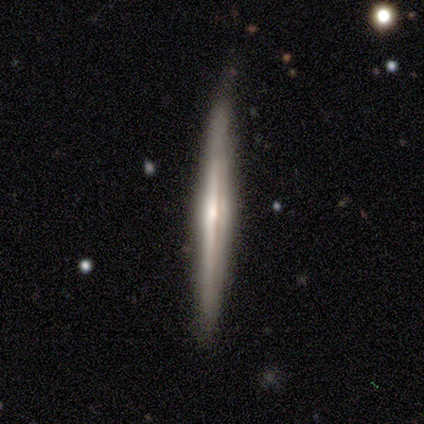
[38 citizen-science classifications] Volunteers were most divided on "edge-on bulge": rounded: 74%, none: 22%, boxy: 4%. More confident: edge-on disk — yes (96%); merging — none (83%); smooth or featured — featured or disk (74%).